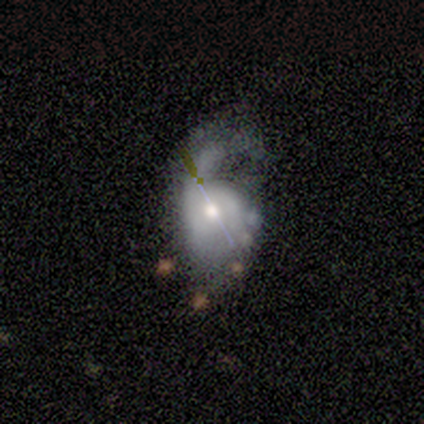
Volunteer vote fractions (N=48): Q: Smooth or featured?
A: featured or disk (65%); runner-up: smooth (29%)
Q: Edge-on disk?
A: no (94%); runner-up: yes (6%)
Q: Bar?
A: no (76%); runner-up: weak (14%)
Q: Spiral arms?
A: yes (79%); runner-up: no (21%)
Q: Spiral winding?
A: loose (65%); runner-up: medium (26%)
Q: Spiral arm count?
A: 1 (70%); runner-up: can't tell (17%)
Q: Bulge size?
A: moderate (52%); runner-up: small (34%)
Q: Merging?
A: major disturbance (51%); runner-up: none (20%)